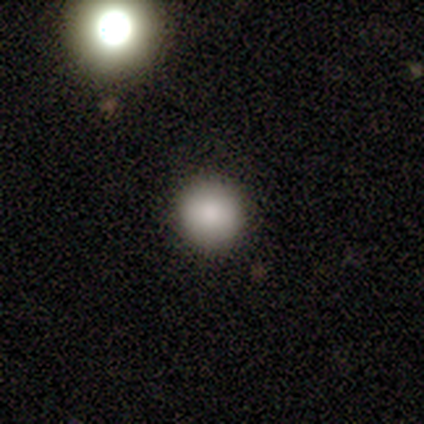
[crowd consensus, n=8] Smooth or featured? smooth (88%)
How rounded? round (100%)
Merging? none (75%)